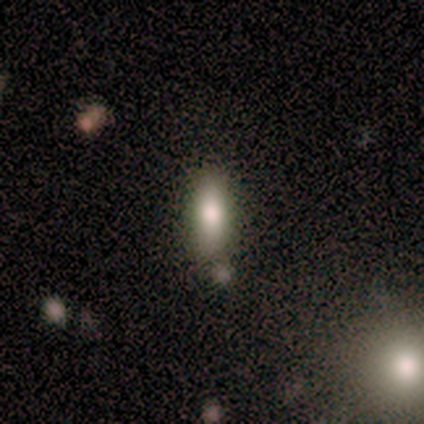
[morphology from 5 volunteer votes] A smooth galaxy with no disk features (80%) that is in between round and cigar-shaped (50%, tied with cigar-shaped). Merging: none (100%).